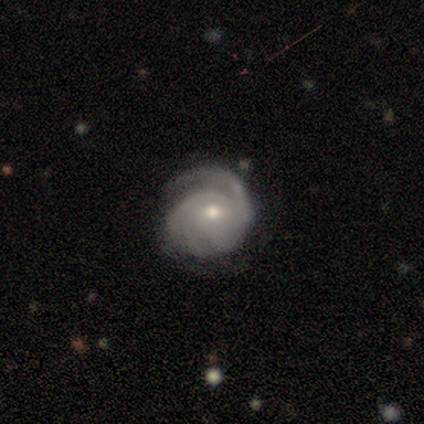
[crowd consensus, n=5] smooth_or_featured: featured or disk (p=1.00)
disk_edge_on: no (p=1.00)
bar: no (p=0.60) [alt: weak p=0.40]
has_spiral_arms: yes (p=1.00)
spiral_winding: tight (p=0.60) [alt: medium p=0.40]
spiral_arm_count: 2 (p=0.40) [alt: 1 p=0.20]
bulge_size: moderate (p=0.80) [alt: small p=0.20]
merging: none (p=0.40) [tied with: minor disturbance p=0.40]